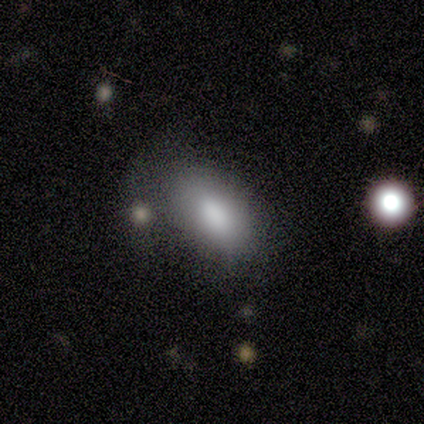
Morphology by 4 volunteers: smooth-or-featured: smooth: 100% | featured or disk: 0% | star or artifact: 0%
  how-rounded: in between: 100% | round: 0% | cigar-shaped: 0%
  merging: none: 50% (tied) | major disturbance: 50% (tied) | minor disturbance: 0% | merger: 0%